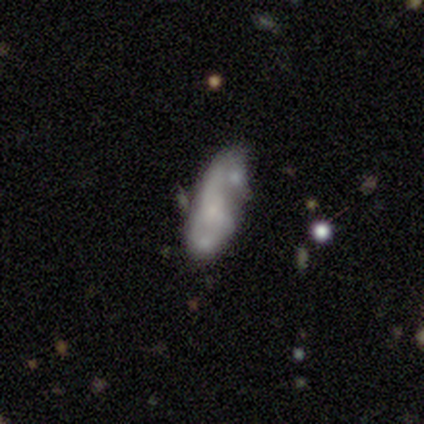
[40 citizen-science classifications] Smooth or featured?
  - featured or disk: 57% *
  - smooth: 30%
  - star or artifact: 12%
Edge-on disk?
  - no: 100% *
  - yes: 0%
Bar?
  - no: 78% *
  - weak: 17%
  - strong: 4%
Spiral arms?
  - yes: 61% *
  - no: 39%
Spiral winding?
  - medium: 43% *
  - tight: 29%
  - loose: 29%
Spiral arm count?
  - 2: 57% *
  - can't tell: 36%
  - 1: 7%
  - 3: 0%
  - 4: 0%
  - more than 4: 0%
Bulge size?
  - small: 57% *
  - none: 35%
  - dominant: 9%
  - large: 0%
  - moderate: 0%
Merging?
  - none: 37% * (tied)
  - minor disturbance: 37% * (tied)
  - major disturbance: 17%
  - merger: 9%